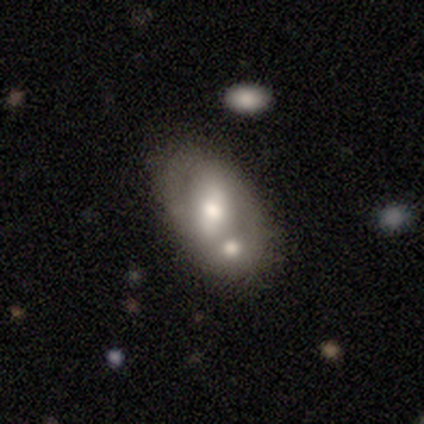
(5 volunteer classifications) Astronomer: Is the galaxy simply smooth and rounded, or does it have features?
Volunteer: featured or disk — 100%.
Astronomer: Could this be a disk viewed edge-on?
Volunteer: no — 100%.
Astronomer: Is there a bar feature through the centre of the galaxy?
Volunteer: no — 60%.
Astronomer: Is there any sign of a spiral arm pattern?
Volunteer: yes — 80%.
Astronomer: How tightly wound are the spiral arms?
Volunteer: medium — 75%.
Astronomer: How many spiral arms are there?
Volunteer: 2 — 75%.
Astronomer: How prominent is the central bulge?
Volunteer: moderate — 60% (runner-up: large, 40%).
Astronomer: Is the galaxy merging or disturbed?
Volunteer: none — 40%, tied with merger at 40%.